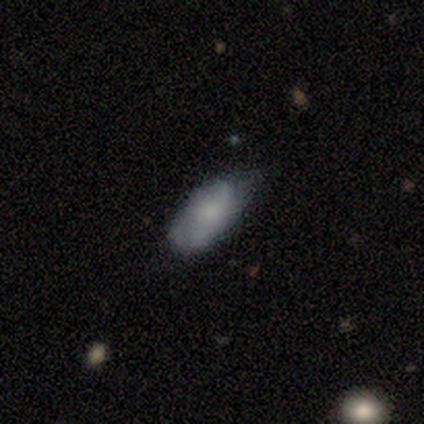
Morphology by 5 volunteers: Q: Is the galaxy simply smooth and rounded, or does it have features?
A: smooth — 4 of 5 (80%).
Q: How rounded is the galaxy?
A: in between — 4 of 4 (100%).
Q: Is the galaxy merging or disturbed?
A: none — 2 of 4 (50%, tied with minor disturbance).